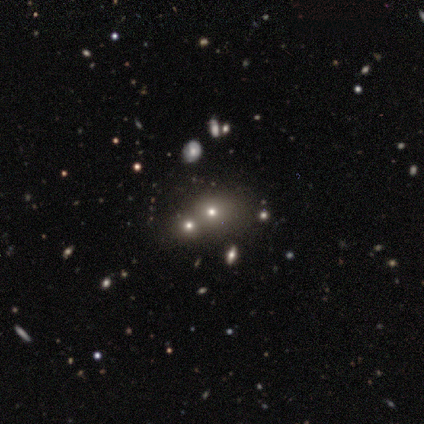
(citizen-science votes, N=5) Morphology: type=smooth (80%); roundness=round (75%); merging=none (75%).